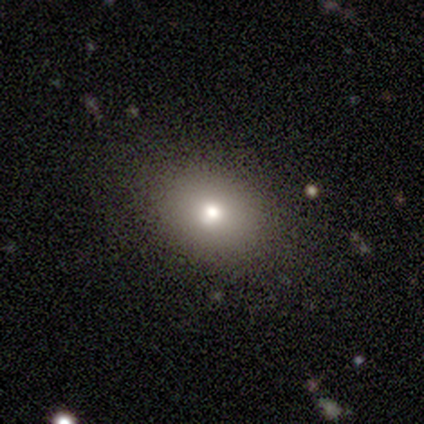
This appears to be a smooth galaxy with no disk features (83%) that is in between round and cigar-shaped (60%). Merging: none (100%).